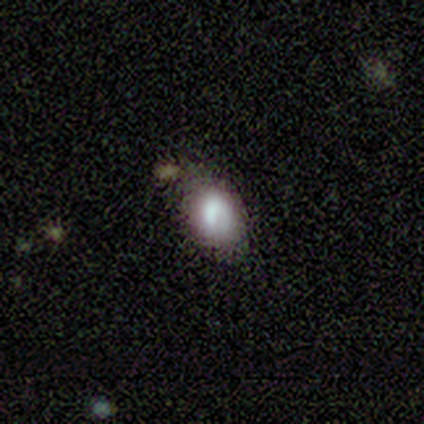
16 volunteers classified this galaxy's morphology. Smooth or featured: smooth — 81% (featured or disk — 12%)
How rounded: in between — 69% (round — 31%)
Merging: none — 93% (minor disturbance — 7%)